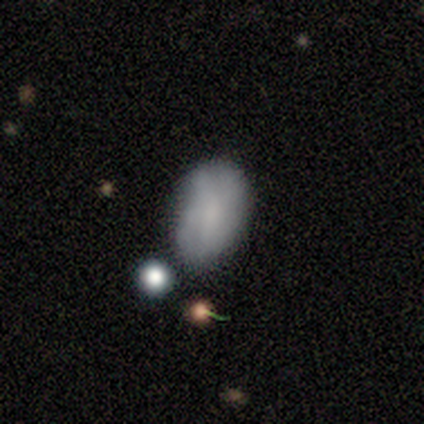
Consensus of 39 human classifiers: Smooth or featured?
  - smooth: 79% *
  - featured or disk: 10%
  - star or artifact: 10%
How rounded?
  - in between: 87% *
  - round: 13%
  - cigar-shaped: 0%
Merging?
  - none: 57% *
  - minor disturbance: 31%
  - major disturbance: 9%
  - merger: 3%